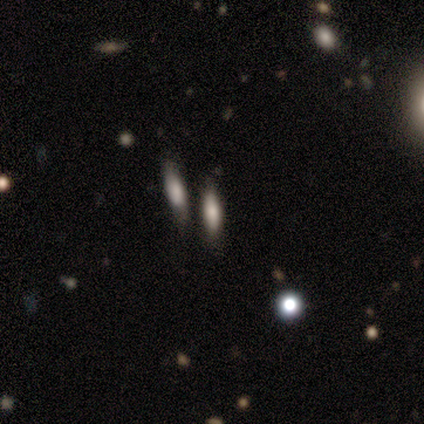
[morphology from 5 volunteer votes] type=smooth (80%); roundness=in between (75%); merging=none (75%).